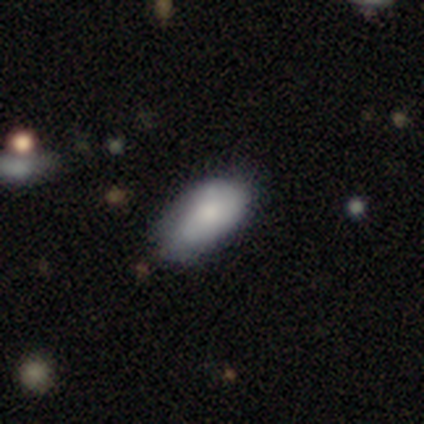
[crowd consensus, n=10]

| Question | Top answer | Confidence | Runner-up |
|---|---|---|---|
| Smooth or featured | smooth | 80% | featured or disk (20%) |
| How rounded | in between | 100% | — |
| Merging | minor disturbance | 60% | none (40%) |